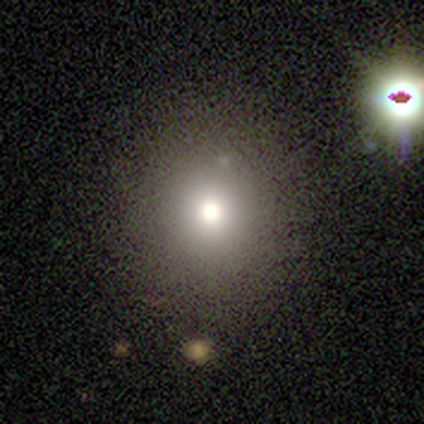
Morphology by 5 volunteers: This appears to be a smooth galaxy with no disk features (100%) that is round (80%). Merging: none (100%).